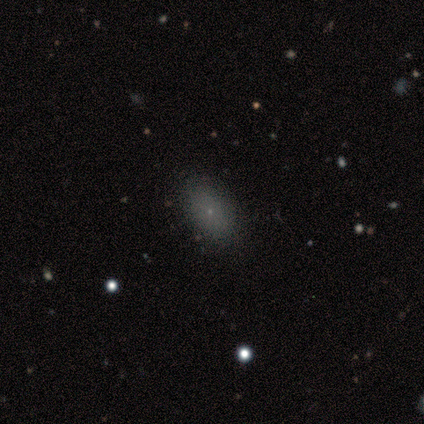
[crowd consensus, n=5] Smooth or featured? 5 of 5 (100%) said smooth. How rounded? 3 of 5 (60%) said in between. Merging? 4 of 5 (80%) said none.